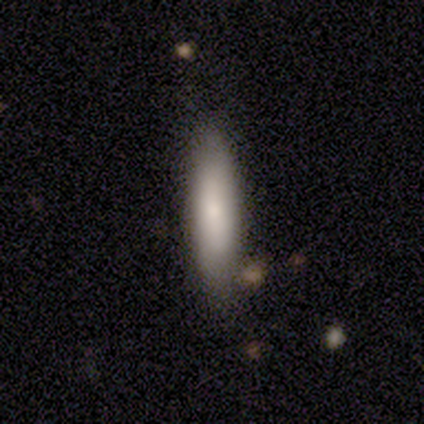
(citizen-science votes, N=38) Smooth or featured?
  - smooth: 79% *
  - featured or disk: 16%
  - star or artifact: 5%
How rounded?
  - cigar-shaped: 77% *
  - in between: 23%
  - round: 0%
Merging?
  - none: 89% *
  - minor disturbance: 6%
  - merger: 6%
  - major disturbance: 0%